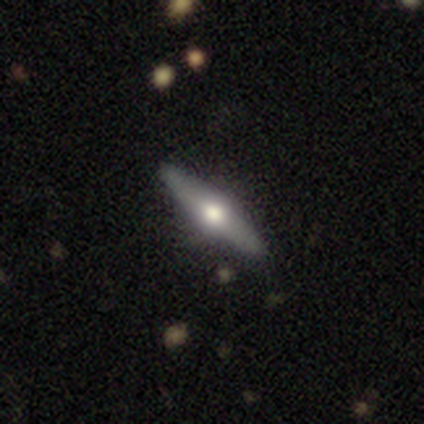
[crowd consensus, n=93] Morphology: type=featured or disk (70%); edge-on=yes (95%); edge-on bulge=rounded (95%); merging=none (92%).